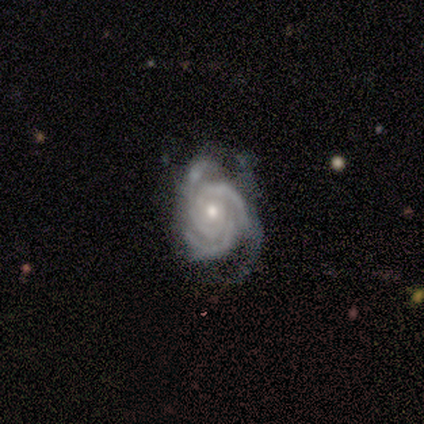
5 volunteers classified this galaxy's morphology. Volunteers were most divided on "merging": none: 60%, minor disturbance: 20%, major disturbance: 20%, merger: 0%. More confident: smooth or featured — featured or disk (100%); edge-on disk — no (100%); spiral arms — yes (100%); spiral arm count — 3 (100%); bar — no (80%); spiral winding — tight (80%); bulge size — moderate (80%).